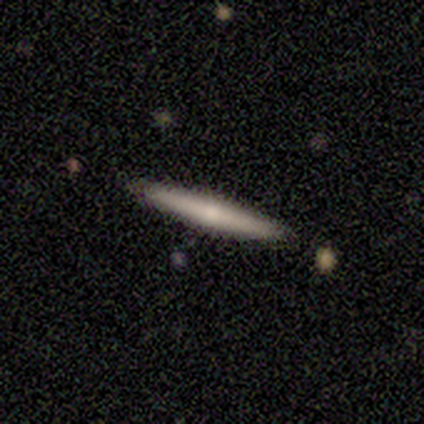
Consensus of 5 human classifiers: smooth_or_featured: featured or disk (p=0.60) [alt: smooth p=0.20]
disk_edge_on: yes (p=1.00)
edge_on_bulge: none (p=0.67) [alt: rounded p=0.33]
merging: none (p=1.00)